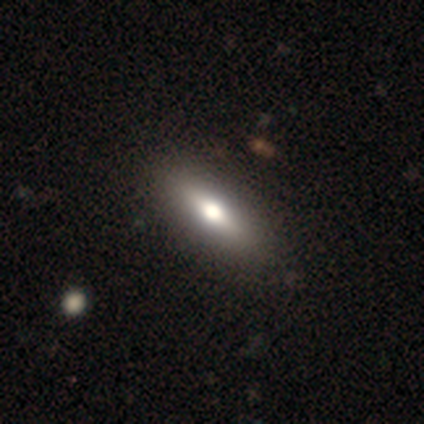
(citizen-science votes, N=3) smooth_or_featured: smooth (p=0.33) [tied with: featured or disk p=0.33, star or artifact p=0.33]
how_rounded: cigar-shaped (p=1.00)
merging: none (p=1.00)